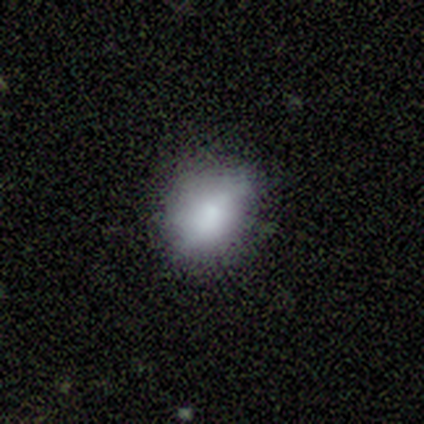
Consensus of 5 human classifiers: Smooth or featured: smooth — 100%
How rounded: in between — 100%
Merging: minor disturbance — 60% (none — 40%)